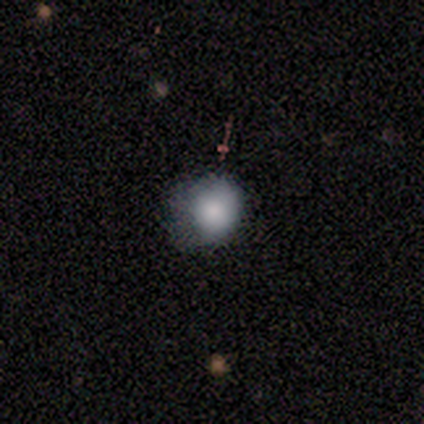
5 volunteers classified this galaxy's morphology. Smooth or featured?
  - smooth: 100% *
  - featured or disk: 0%
  - star or artifact: 0%
How rounded?
  - in between: 60% *
  - round: 40%
  - cigar-shaped: 0%
Merging?
  - major disturbance: 60% *
  - none: 40%
  - minor disturbance: 0%
  - merger: 0%